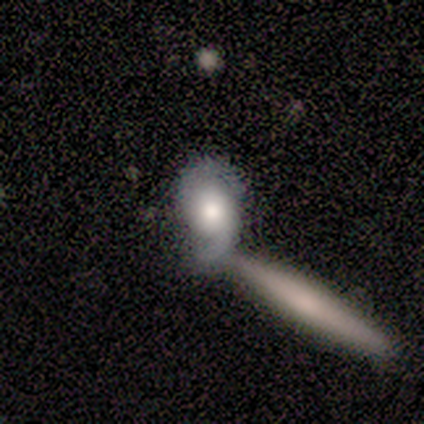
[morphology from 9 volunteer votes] smooth_or_featured: featured or disk (p=0.67) [alt: smooth p=0.33]
disk_edge_on: no (p=1.00)
bar: no (p=1.00)
has_spiral_arms: yes (p=1.00)
spiral_winding: medium (p=0.67) [alt: loose p=0.33]
spiral_arm_count: 2 (p=0.83) [alt: 1 p=0.17]
bulge_size: large (p=0.67) [alt: moderate p=0.17]
merging: none (p=0.44) [alt: merger p=0.33]